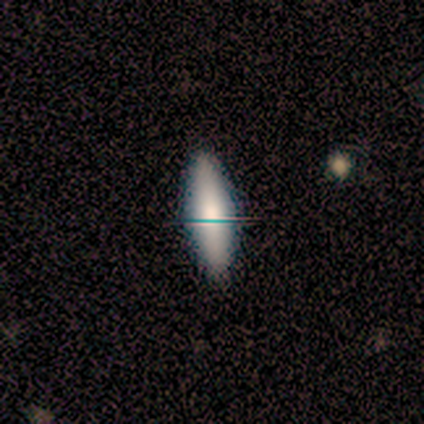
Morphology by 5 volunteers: smooth 60%, featured or disk 20%, star or artifact 20%. Down the decision tree: how rounded — in between (67%); merging — none (75%).